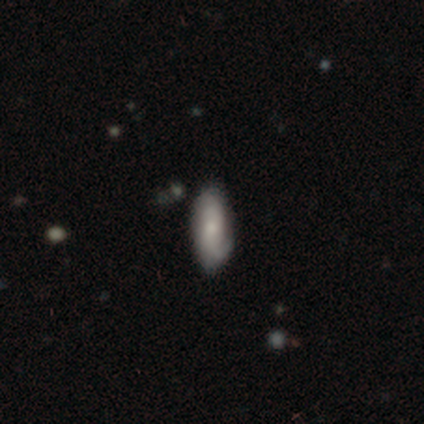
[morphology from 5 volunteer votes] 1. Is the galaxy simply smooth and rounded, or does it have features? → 80% smooth, 20% featured or disk, 0% star or artifact.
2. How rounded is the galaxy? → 50% in between (tied), 50% cigar-shaped (tied), 0% round.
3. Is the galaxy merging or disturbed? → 100% none, 0% minor disturbance, 0% major disturbance, 0% merger.